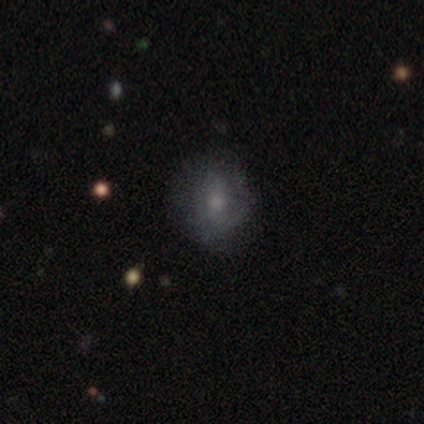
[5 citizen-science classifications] This appears to be a smooth galaxy with no disk features (60%) that is round (100%). Merging: none (80%).